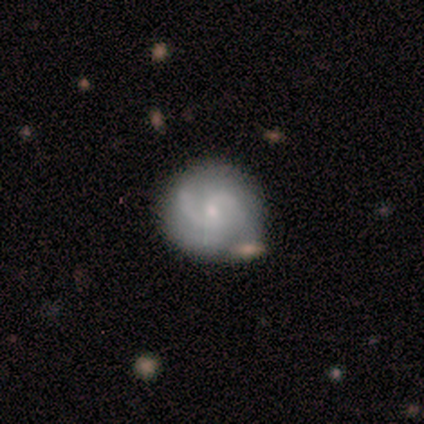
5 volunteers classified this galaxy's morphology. A featured or disk galaxy (60%) with no bar (100%), 2 (33%, tied with 3 and can't tell) medium (100%) spiral arms (100%) and a small central bulge (67%). Merging: none (80%).